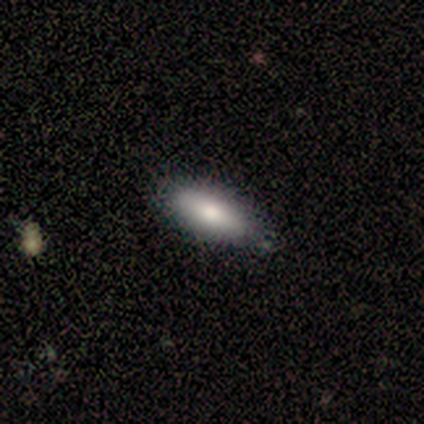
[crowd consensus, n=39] Q: Smooth or featured?
A: smooth (82%); runner-up: featured or disk (15%)
Q: How rounded?
A: in between (72%); runner-up: cigar-shaped (28%)
Q: Merging?
A: none (66%); runner-up: minor disturbance (11%)